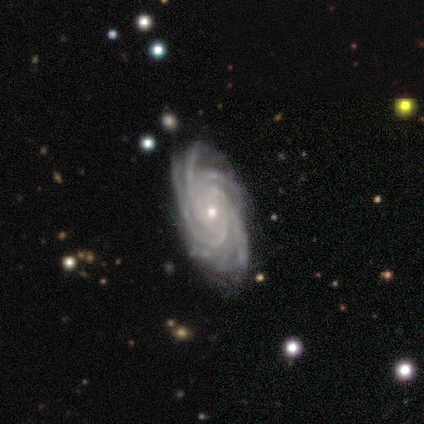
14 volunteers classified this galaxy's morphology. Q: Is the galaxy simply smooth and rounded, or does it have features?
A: featured or disk — 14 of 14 (100%).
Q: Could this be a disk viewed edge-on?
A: no — 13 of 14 (93%).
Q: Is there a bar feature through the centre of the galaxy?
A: no — 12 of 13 (92%).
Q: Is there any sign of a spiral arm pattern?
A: yes — 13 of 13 (100%).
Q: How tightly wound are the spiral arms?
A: tight — 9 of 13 (69%).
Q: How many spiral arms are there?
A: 4 — 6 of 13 (46%).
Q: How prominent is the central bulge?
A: small — 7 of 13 (54%).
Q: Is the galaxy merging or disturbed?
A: none — 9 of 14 (64%).